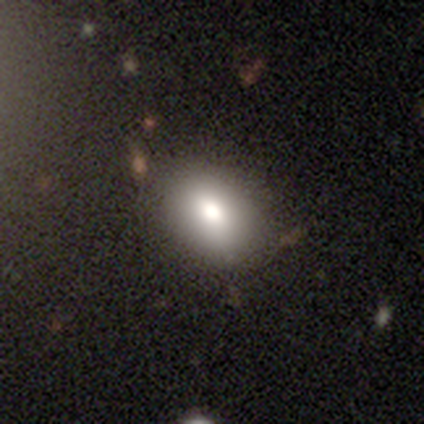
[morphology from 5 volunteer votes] Smooth or featured?
  - smooth: 80% *
  - featured or disk: 20%
  - star or artifact: 0%
How rounded?
  - in between: 75% *
  - round: 25%
  - cigar-shaped: 0%
Merging?
  - none: 100% *
  - minor disturbance: 0%
  - major disturbance: 0%
  - merger: 0%